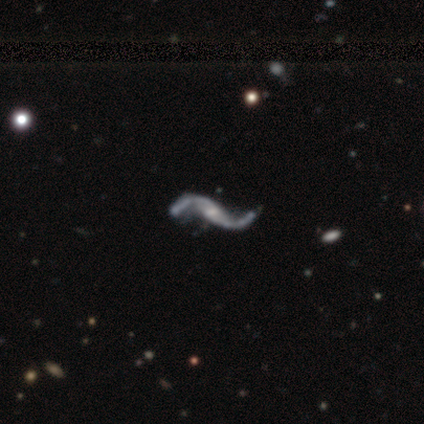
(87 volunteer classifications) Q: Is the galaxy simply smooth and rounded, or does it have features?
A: featured or disk — 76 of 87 (87%).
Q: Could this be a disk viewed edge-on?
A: no — 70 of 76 (92%).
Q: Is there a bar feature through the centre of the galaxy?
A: no — 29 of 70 (41%).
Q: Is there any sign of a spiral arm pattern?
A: yes — 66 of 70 (94%).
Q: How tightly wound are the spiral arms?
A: loose — 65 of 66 (98%).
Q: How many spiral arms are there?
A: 2 — 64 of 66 (97%).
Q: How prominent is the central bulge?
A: small — 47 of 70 (67%).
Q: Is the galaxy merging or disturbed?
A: none — 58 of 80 (72%).